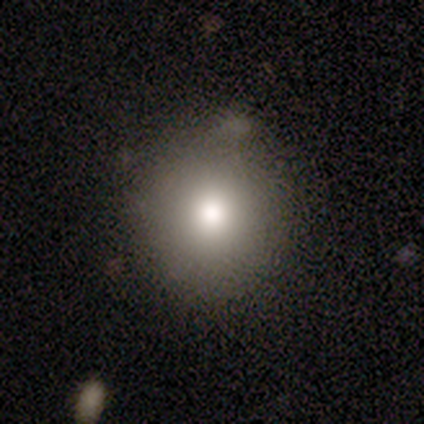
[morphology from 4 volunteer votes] Smooth or featured?
  - smooth: 100% *
  - featured or disk: 0%
  - star or artifact: 0%
How rounded?
  - round: 100% *
  - in between: 0%
  - cigar-shaped: 0%
Merging?
  - none: 50% * (tied)
  - minor disturbance: 50% * (tied)
  - major disturbance: 0%
  - merger: 0%